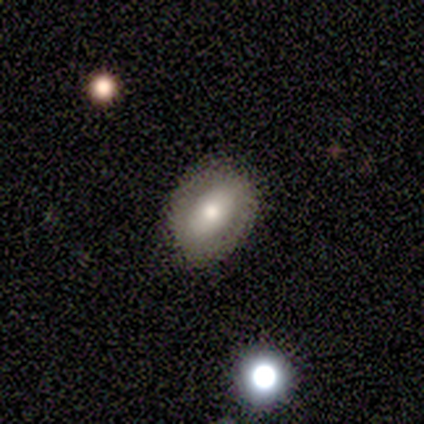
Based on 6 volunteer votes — smooth 83%, featured or disk 17%, star or artifact 0%. Down the decision tree: how rounded — in between (80%); merging — none (83%).